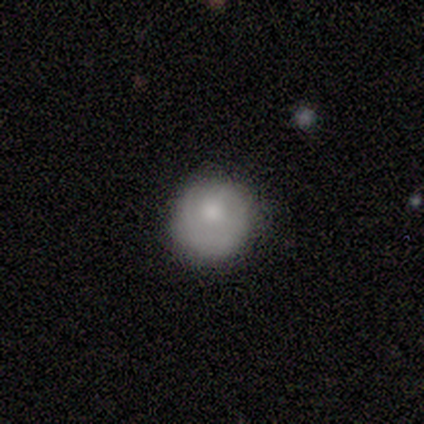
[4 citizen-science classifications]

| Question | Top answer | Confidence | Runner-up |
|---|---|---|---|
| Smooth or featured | smooth | 50% | tied: featured or disk (50%) |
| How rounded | round | 100% | — |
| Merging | none | 75% | minor disturbance (25%) |